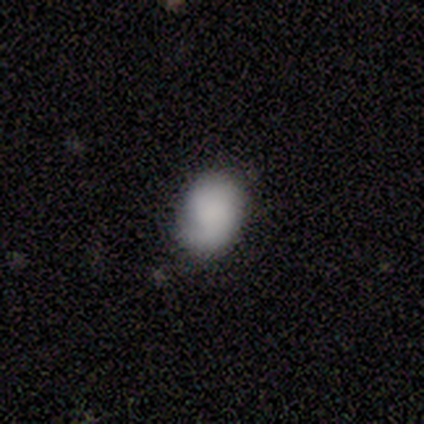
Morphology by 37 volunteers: A smooth galaxy with no disk features (84%) that is in between round and cigar-shaped (58%). Merging: none (66%).